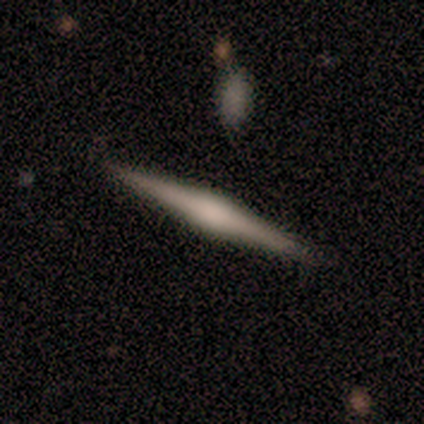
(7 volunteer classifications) A featured or disk galaxy (100%) viewed edge-on (100%) with a rounded central bulge (71%).

Vote fractions:
- Smooth or featured? featured or disk: 100% / smooth: 0% / star or artifact: 0%
- Edge-on disk? yes: 100% / no: 0%
- Edge-on bulge? rounded: 71% / boxy: 29% / none: 0%
- Merging? none: 86% / minor disturbance: 14% / major disturbance: 0% / merger: 0%